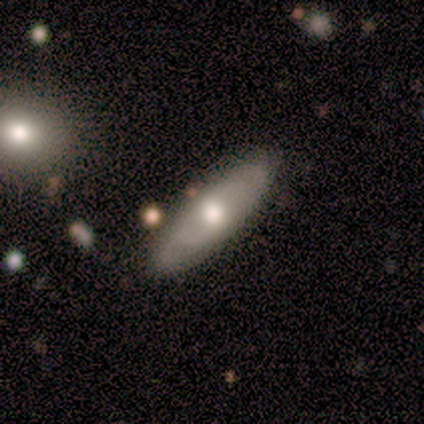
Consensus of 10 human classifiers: Smooth or featured: smooth — 50% (tied with featured or disk — 50%)
How rounded: in between — 60% (cigar-shaped — 40%)
Merging: none — 80% (minor disturbance — 20%)